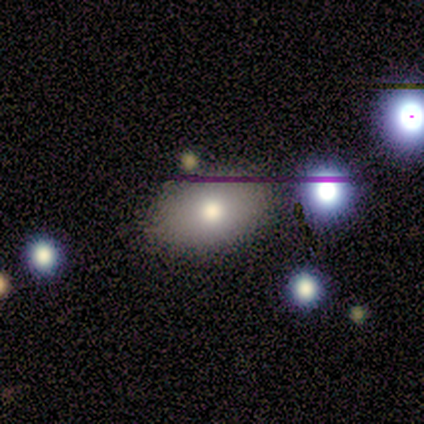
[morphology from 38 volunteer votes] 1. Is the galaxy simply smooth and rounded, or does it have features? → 82% smooth, 13% star or artifact, 5% featured or disk.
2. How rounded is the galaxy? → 74% in between, 26% round, 0% cigar-shaped.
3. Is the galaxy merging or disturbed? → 70% none, 21% minor disturbance, 6% major disturbance, 3% merger.